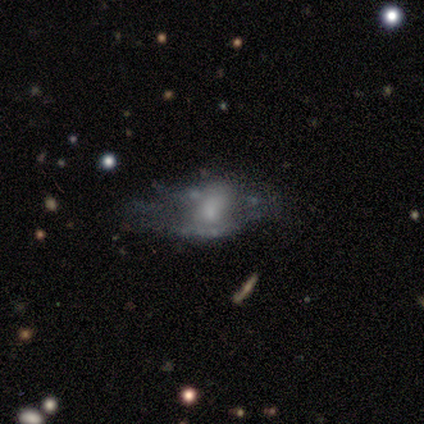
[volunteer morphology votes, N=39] smooth-or-featured: featured or disk: 72% | smooth: 23% | star or artifact: 5%
  disk-edge-on: no: 89% | yes: 11%
    bar: no: 88% | weak: 8% | strong: 4%
    has-spiral-arms: no: 88% | yes: 12%
    bulge-size: small: 48% | moderate: 20% | none: 20% | large: 8% | dominant: 4%
  merging: none: 38% | major disturbance: 30% | minor disturbance: 22% | merger: 11%